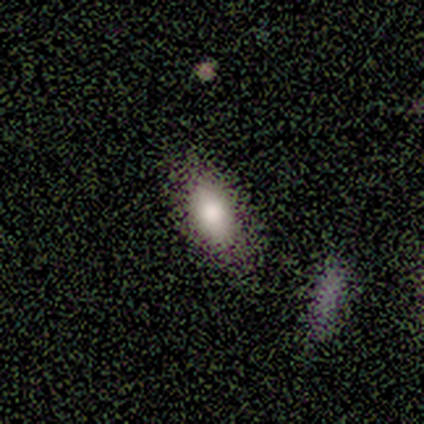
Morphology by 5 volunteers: smooth 80%, star or artifact 20%, featured or disk 0%. Down the decision tree: how rounded — in between (75%); merging — none (75%).